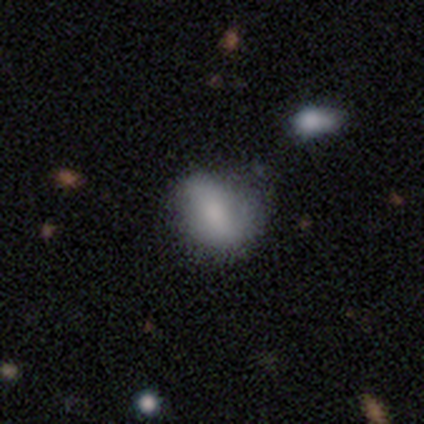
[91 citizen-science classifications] Volunteers were most divided on "merging": none: 46%, minor disturbance: 42%, major disturbance: 6%, merger: 6%. More confident: smooth or featured — smooth (68%); how rounded — in between (58%).